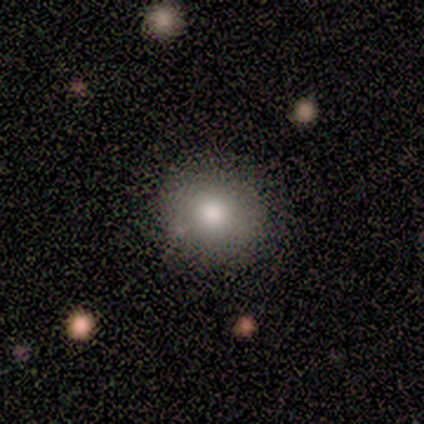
Morphology: type=smooth (67%); roundness=round (100%); merging=none (62%).